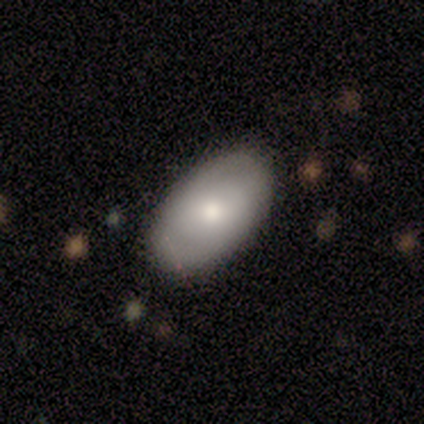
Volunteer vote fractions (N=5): Smooth or featured? smooth (80%)
How rounded? in between (100%)
Merging? none (60%)